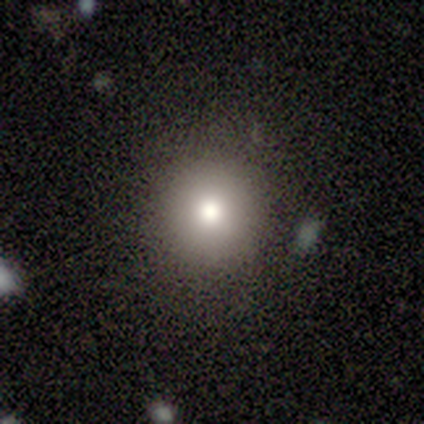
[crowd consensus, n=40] smooth-or-featured: smooth: 78% | star or artifact: 12% | featured or disk: 10%
  how-rounded: round: 94% | in between: 6% | cigar-shaped: 0%
  merging: none: 89% | minor disturbance: 9% | merger: 3% | major disturbance: 0%